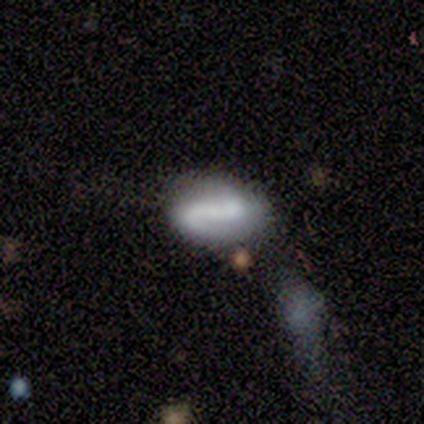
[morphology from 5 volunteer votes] Smooth or featured? 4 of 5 (80%) said smooth. How rounded? 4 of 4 (100%) said in between. Merging? 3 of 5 (60%) said minor disturbance.